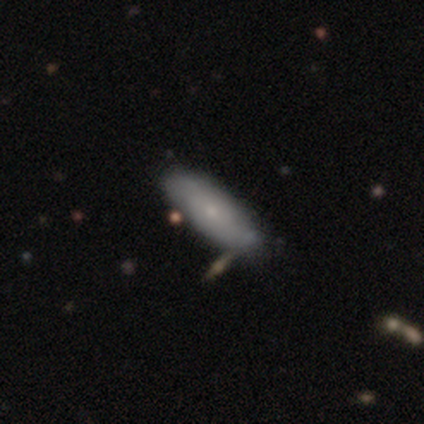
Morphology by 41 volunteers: Q: Smooth or featured?
A: smooth (54%); runner-up: featured or disk (37%)
Q: How rounded?
A: in between (82%); runner-up: cigar-shaped (18%)
Q: Merging?
A: none (70%); runner-up: minor disturbance (24%)